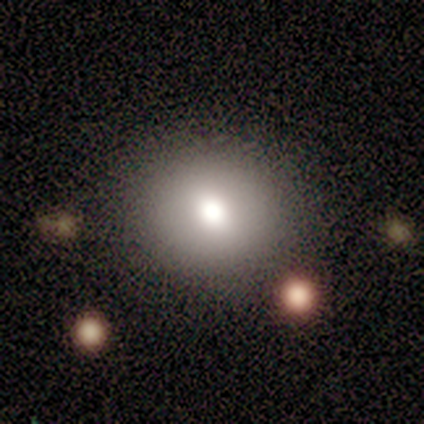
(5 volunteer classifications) Smooth or featured? smooth (100%)
How rounded? round (60%)
Merging? none (80%)